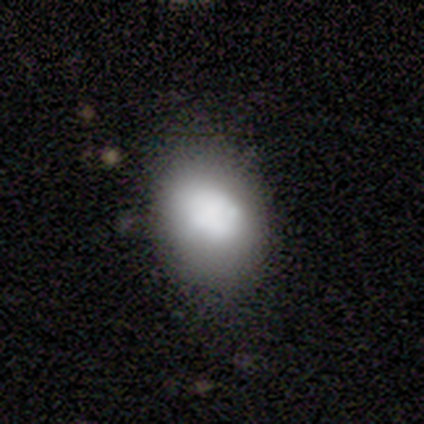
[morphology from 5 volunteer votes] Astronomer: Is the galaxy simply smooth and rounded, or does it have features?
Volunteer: smooth — 80%.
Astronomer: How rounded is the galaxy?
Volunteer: in between — 75%.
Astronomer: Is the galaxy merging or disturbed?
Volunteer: none — 50%, tied with major disturbance at 50%.